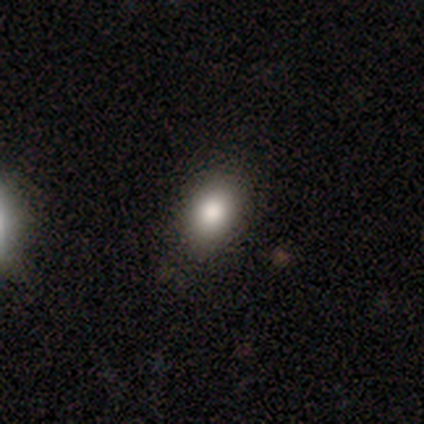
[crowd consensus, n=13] Volunteers were most divided on "how rounded": in between: 80%, round: 20%, cigar-shaped: 0%. More confident: merging — none (83%); smooth or featured — smooth (77%).